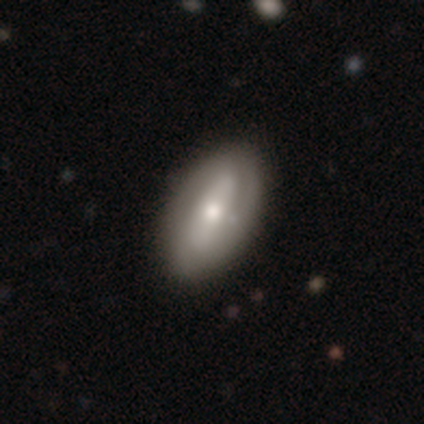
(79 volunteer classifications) smooth_or_featured: featured or disk (p=0.54) [alt: smooth p=0.38]
disk_edge_on: no (p=1.00)
bar: strong (p=0.44) [alt: weak p=0.28]
has_spiral_arms: yes (p=0.53) [alt: no p=0.47]
spiral_winding: tight (p=0.39) [alt: medium p=0.35]
spiral_arm_count: 2 (p=0.52) [alt: can't tell p=0.39]
bulge_size: moderate (p=0.65) [alt: small p=0.26]
merging: none (p=0.38) [alt: minor disturbance p=0.10]